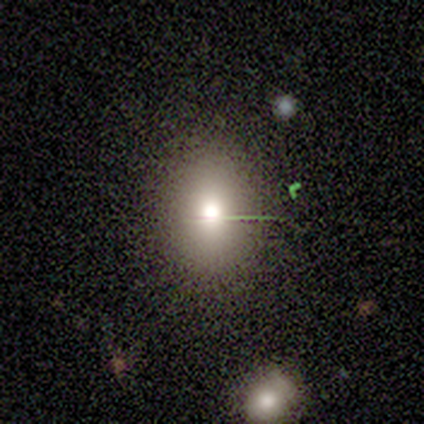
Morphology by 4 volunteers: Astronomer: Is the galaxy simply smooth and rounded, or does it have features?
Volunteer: smooth — 50%.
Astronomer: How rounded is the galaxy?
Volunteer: in between — 100%.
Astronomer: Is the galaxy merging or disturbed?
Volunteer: none — 100%.